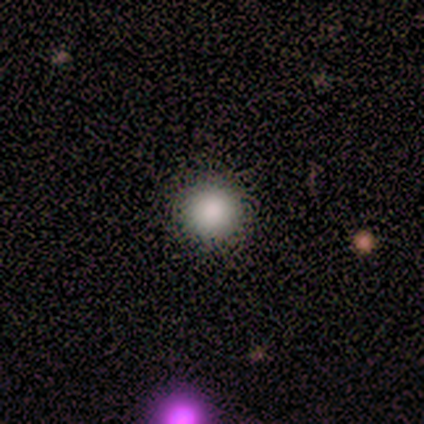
smooth_or_featured: smooth (p=1.00)
how_rounded: round (p=0.80) [alt: in between p=0.20]
merging: none (p=1.00)